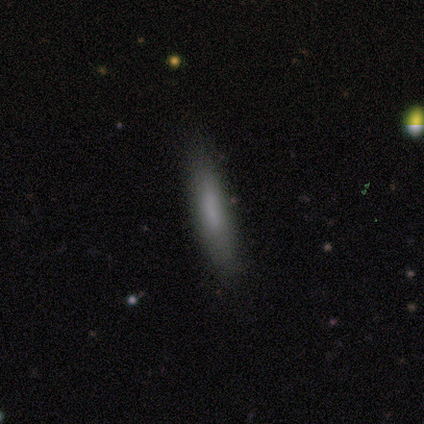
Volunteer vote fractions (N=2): smooth-or-featured: smooth: 100% | featured or disk: 0% | star or artifact: 0%
  how-rounded: cigar-shaped: 100% | round: 0% | in between: 0%
  merging: none: 100% | minor disturbance: 0% | major disturbance: 0% | merger: 0%